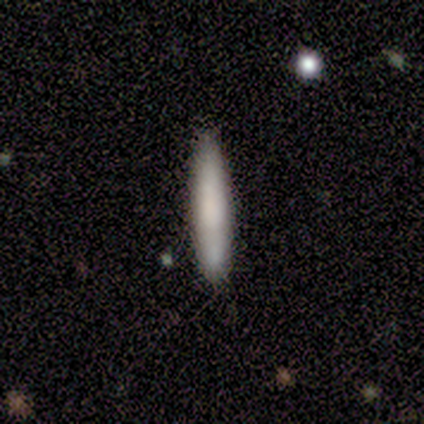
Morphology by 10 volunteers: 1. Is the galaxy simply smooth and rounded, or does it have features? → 70% smooth, 30% featured or disk, 0% star or artifact.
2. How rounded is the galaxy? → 100% cigar-shaped, 0% round, 0% in between.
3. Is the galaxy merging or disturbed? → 80% none, 20% minor disturbance, 0% major disturbance, 0% merger.